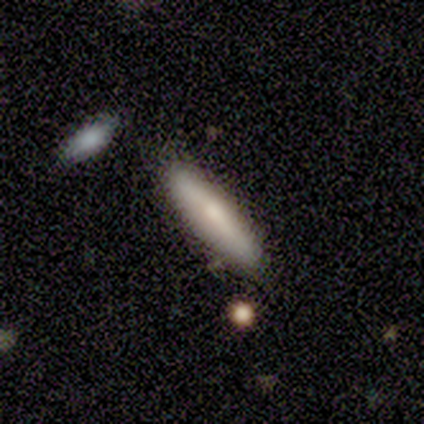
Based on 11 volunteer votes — Smooth or featured?
  - smooth: 82% *
  - featured or disk: 18%
  - star or artifact: 0%
How rounded?
  - cigar-shaped: 100% *
  - round: 0%
  - in between: 0%
Merging?
  - none: 91% *
  - minor disturbance: 9%
  - major disturbance: 0%
  - merger: 0%